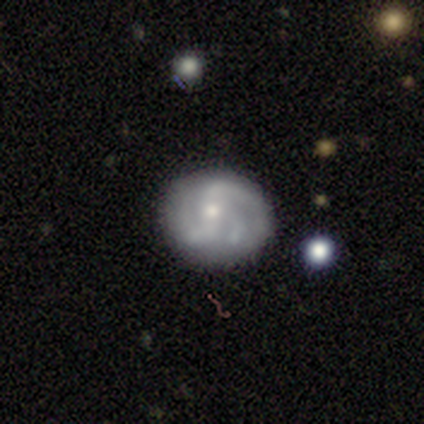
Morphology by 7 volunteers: smooth-or-featured: smooth: 43% (tied) | featured or disk: 43% (tied) | star or artifact: 14%
  how-rounded: round: 100% | in between: 0% | cigar-shaped: 0%
  merging: none: 83% | minor disturbance: 17% | major disturbance: 0% | merger: 0%